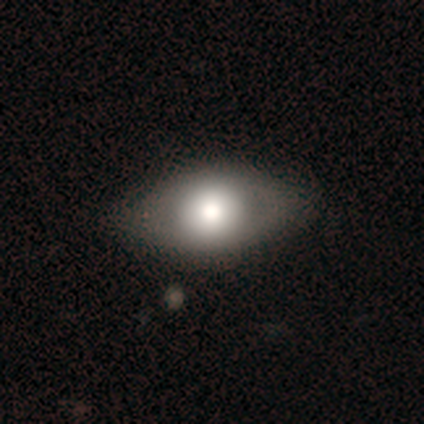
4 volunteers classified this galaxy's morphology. Overall: smooth (50%; featured or disk 25%). How rounded: round (50%, tied with in between). Merging: minor disturbance (67%; none 33%).